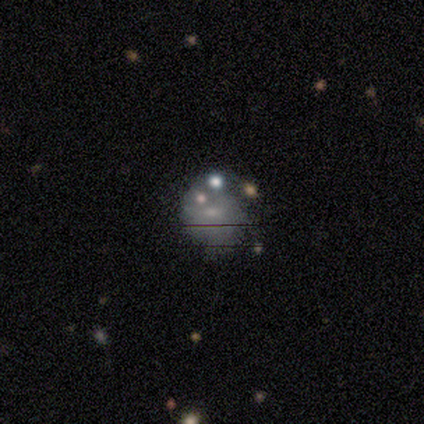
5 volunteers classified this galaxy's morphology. smooth 60%, star or artifact 40%, featured or disk 0%. Down the decision tree: how rounded — round (67%); merging — minor disturbance (67%).